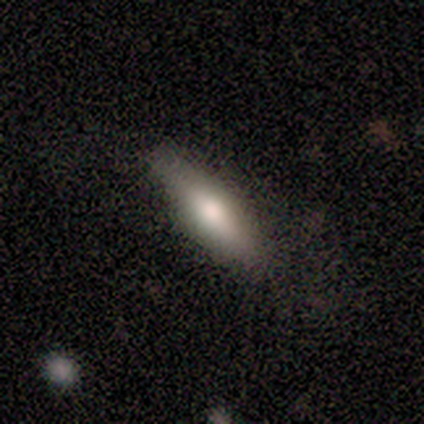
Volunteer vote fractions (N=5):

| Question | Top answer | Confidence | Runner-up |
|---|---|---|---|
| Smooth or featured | smooth | 100% | — |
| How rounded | cigar-shaped | 60% | in between (40%) |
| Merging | none | 60% | minor disturbance (40%) |